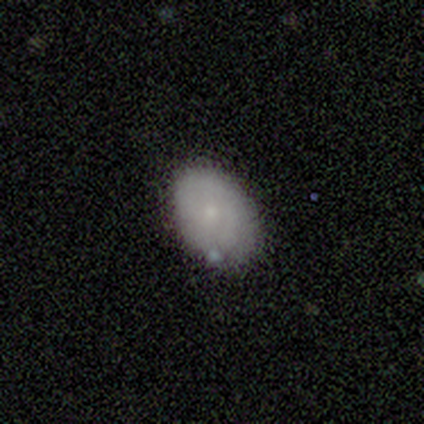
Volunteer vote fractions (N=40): Smooth or featured? 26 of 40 (65%) said smooth. How rounded? 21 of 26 (81%) said in between. Merging? 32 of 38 (84%) said none.